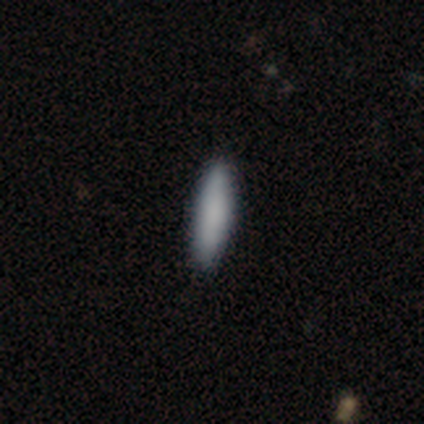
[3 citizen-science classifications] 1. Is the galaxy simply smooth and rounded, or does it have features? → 67% smooth, 33% star or artifact, 0% featured or disk.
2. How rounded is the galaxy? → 50% in between (tied), 50% cigar-shaped (tied), 0% round.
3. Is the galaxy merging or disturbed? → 100% none, 0% minor disturbance, 0% major disturbance, 0% merger.